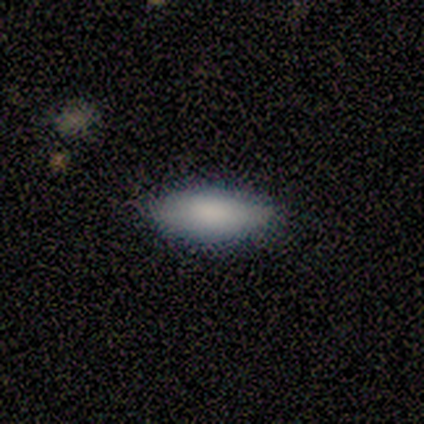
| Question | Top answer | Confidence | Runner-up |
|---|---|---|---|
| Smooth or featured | smooth | 100% | — |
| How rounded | in between | 100% | — |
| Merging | none | 100% | — |